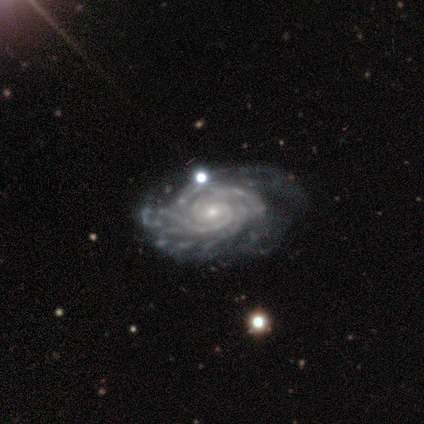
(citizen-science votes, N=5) Smooth or featured? 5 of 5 (100%) said featured or disk. Edge-on disk? 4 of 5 (80%) said no. Bar? 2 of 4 (50%, tied with no) said weak. Spiral arms? 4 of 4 (100%) said yes. Spiral winding? 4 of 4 (100%) said tight. Spiral arm count? 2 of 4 (50%) said more than 4. Bulge size? 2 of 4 (50%, tied with small) said moderate. Merging? 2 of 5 (40%, tied with minor disturbance) said none.